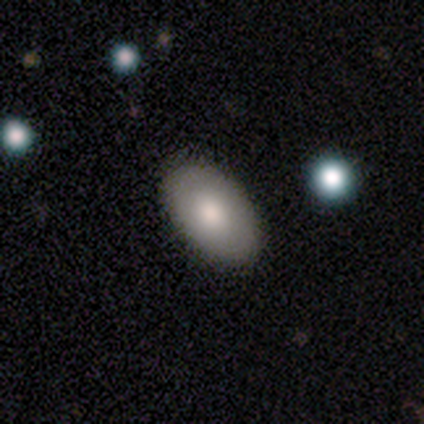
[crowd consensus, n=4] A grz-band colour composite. It shows a smooth galaxy with no disk features (100%) that is in between round and cigar-shaped (100%). Merging: none (75%).